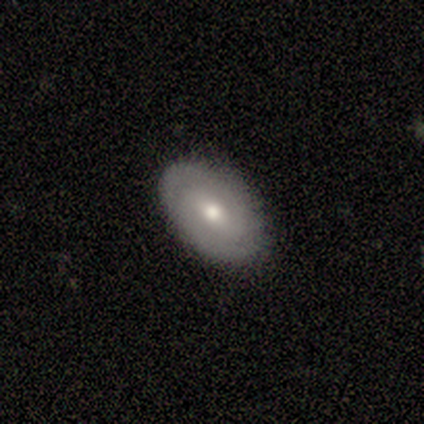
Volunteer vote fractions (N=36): A smooth galaxy with no disk features (53%) that is in between round and cigar-shaped (100%).

Vote fractions:
- Smooth or featured? smooth: 53% / featured or disk: 39% / star or artifact: 8%
- How rounded? in between: 100% / round: 0% / cigar-shaped: 0%
- Merging? none: 85% / minor disturbance: 12% / merger: 3% / major disturbance: 0%